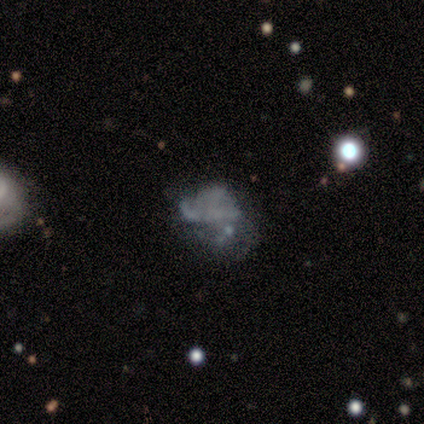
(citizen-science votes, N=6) Smooth or featured? 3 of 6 (50%) said smooth. How rounded? 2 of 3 (67%) said round. Merging? 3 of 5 (60%) said none.